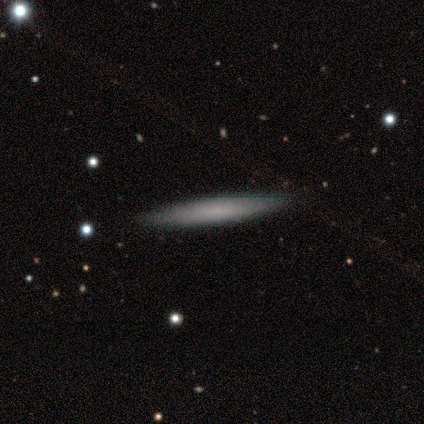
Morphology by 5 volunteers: Smooth or featured? featured or disk (60%)
Edge-on disk? yes (100%)
Edge-on bulge? none (67%)
Merging? none (75%)